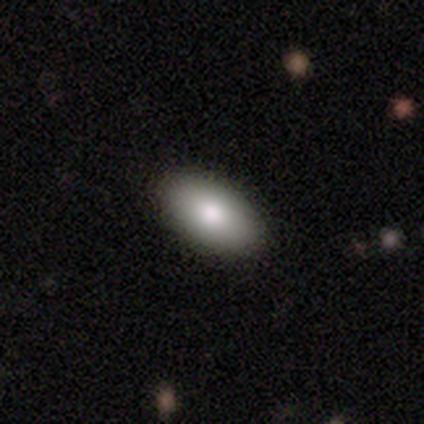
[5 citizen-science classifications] Smooth or featured: smooth — 80% (featured or disk — 20%)
How rounded: in between — 75% (cigar-shaped — 25%)
Merging: none — 100%